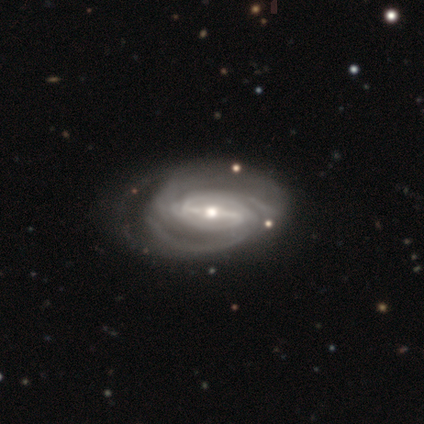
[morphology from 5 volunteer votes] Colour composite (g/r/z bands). It shows a featured or disk galaxy (100%) with a strong bar (60%), 3 (40%, tied with can't tell) medium (60%) spiral arms (100%) and a moderate central bulge (60%). Merging: minor disturbance (80%).